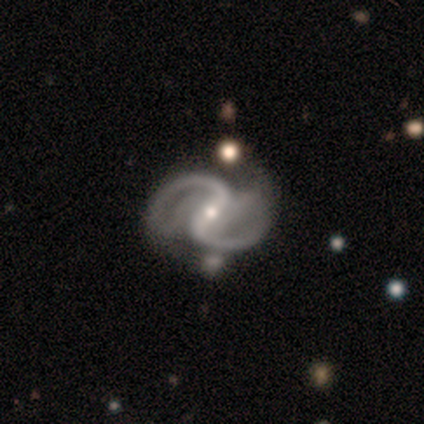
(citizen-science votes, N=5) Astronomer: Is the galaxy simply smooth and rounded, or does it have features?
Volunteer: featured or disk — 100%.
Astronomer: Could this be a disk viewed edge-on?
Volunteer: no — 100%.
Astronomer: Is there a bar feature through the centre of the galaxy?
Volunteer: strong — 40%, tied with weak at 40%.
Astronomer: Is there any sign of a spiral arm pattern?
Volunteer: yes — 100%.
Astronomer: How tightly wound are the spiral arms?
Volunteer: medium — 80%.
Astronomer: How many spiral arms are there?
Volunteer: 2 — 100%.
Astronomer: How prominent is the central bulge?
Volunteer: moderate — 60%.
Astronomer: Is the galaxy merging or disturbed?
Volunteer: none — 60%.